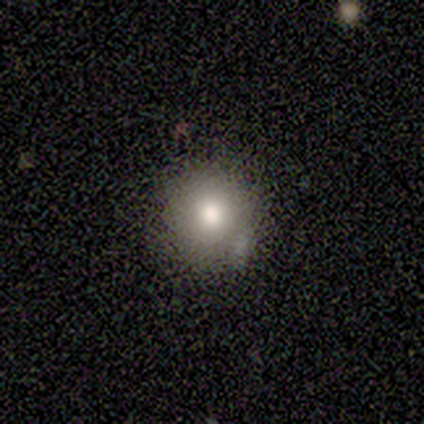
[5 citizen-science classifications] smooth-or-featured: smooth: 80% | featured or disk: 20% | star or artifact: 0%
  how-rounded: round: 100% | in between: 0% | cigar-shaped: 0%
  merging: none: 80% | minor disturbance: 20% | major disturbance: 0% | merger: 0%